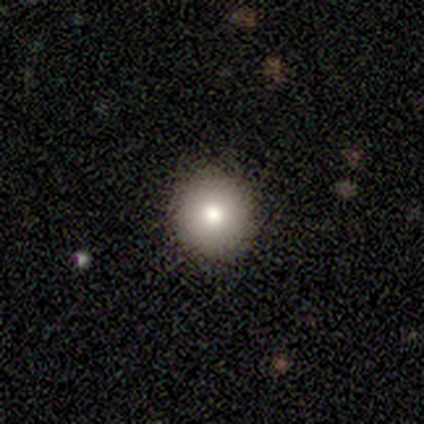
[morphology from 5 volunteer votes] Overall: smooth (100%). How rounded: round (100%). Merging: none (80%).